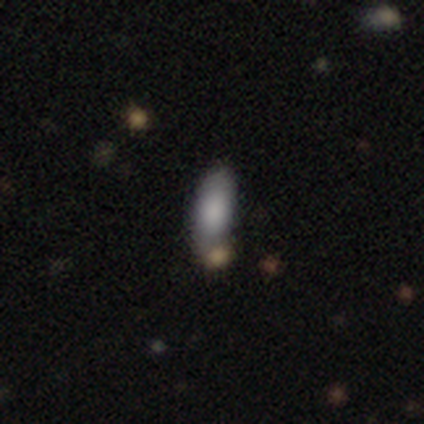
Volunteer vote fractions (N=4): A smooth galaxy with no disk features (100%) that is in between round and cigar-shaped (75%).

Vote fractions:
- Smooth or featured? smooth: 100% / featured or disk: 0% / star or artifact: 0%
- How rounded? in between: 75% / cigar-shaped: 25% / round: 0%
- Merging? none: 50% (tied) / minor disturbance: 50% (tied) / major disturbance: 0% / merger: 0%